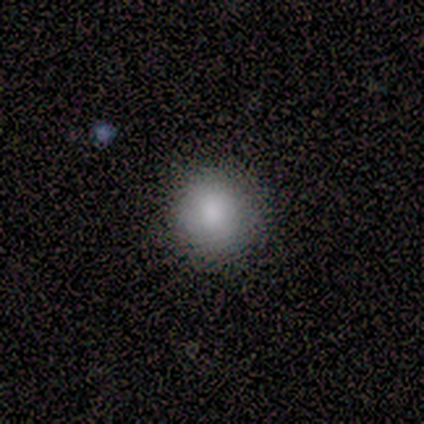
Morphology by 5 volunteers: This is clearly a smooth galaxy (100%). How rounded: clearly round (100%). Merging: clearly none (100%).